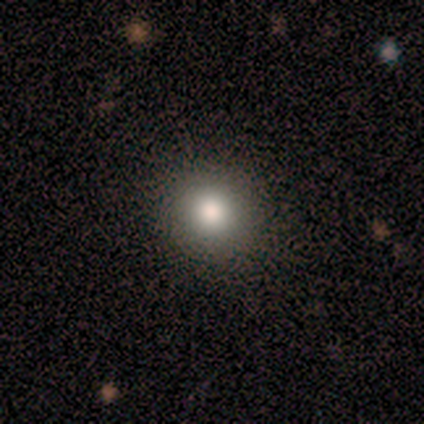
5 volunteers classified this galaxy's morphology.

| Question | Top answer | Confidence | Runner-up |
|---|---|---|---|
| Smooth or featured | smooth | 80% | star or artifact (20%) |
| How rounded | round | 100% | — |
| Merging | none | 75% | minor disturbance (25%) |